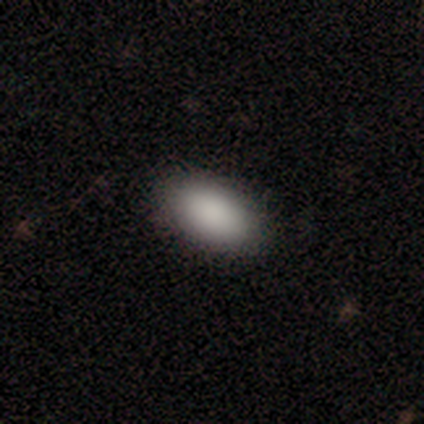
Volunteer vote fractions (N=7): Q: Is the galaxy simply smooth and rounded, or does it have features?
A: smooth — 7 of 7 (100%).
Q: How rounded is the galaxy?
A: in between — 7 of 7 (100%).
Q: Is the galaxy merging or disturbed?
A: none — 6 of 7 (86%).